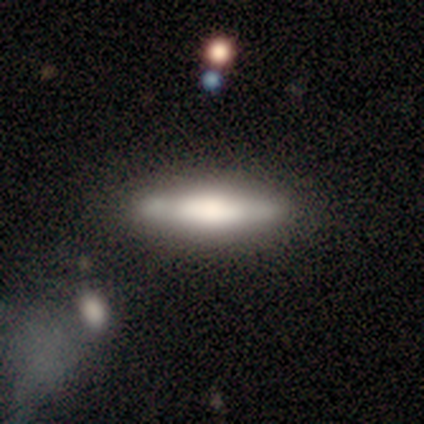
A featured or disk galaxy (60%) viewed edge-on (100%) with a boxy central bulge (33%, tied with none and rounded).

Vote fractions:
- Smooth or featured? featured or disk: 60% / smooth: 40% / star or artifact: 0%
- Edge-on disk? yes: 100% / no: 0%
- Edge-on bulge? boxy: 33% (tied) / none: 33% (tied) / rounded: 33% (tied)
- Merging? none: 100% / minor disturbance: 0% / major disturbance: 0% / merger: 0%